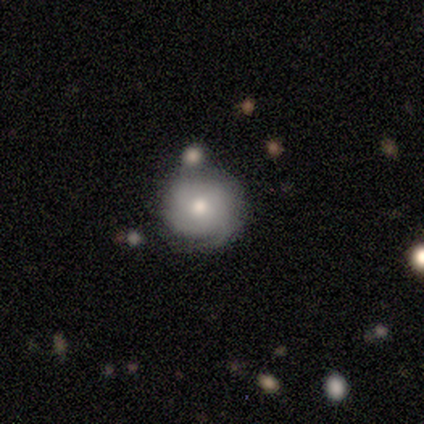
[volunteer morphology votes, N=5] type=featured or disk (60%); edge-on=no (100%); bar=no (67%); spiral arms=yes (67%); winding=tight (100%); arm count=1 (50%, tied with can't tell); bulge=moderate (67%); merging=none (100%).